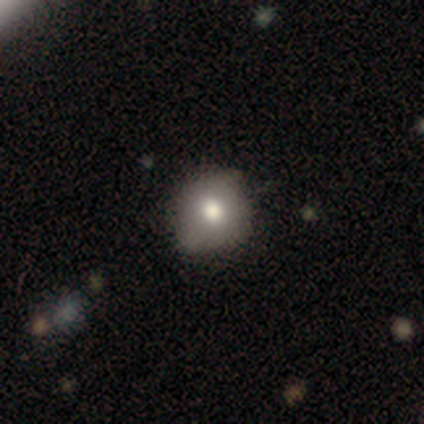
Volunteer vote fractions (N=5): smooth-or-featured: smooth: 60% | featured or disk: 40% | star or artifact: 0%
  how-rounded: round: 100% | in between: 0% | cigar-shaped: 0%
  merging: none: 60% | minor disturbance: 40% | major disturbance: 0% | merger: 0%